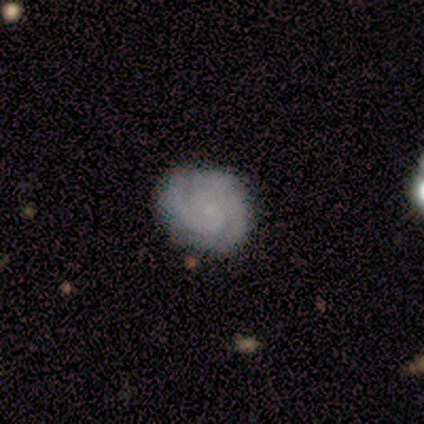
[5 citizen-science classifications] This is clearly a featured or disk galaxy (80%). It is clearly not viewed edge-on (100%). Bar: possibly weak (50%, tied with no). Spiral arm pattern: clearly yes (100%). Spiral arm count: possibly 2 (50%, tied with 3). Spiral winding: likely tight (75%). Central bulge: possibly small (50%). Merging: clearly none (80%).